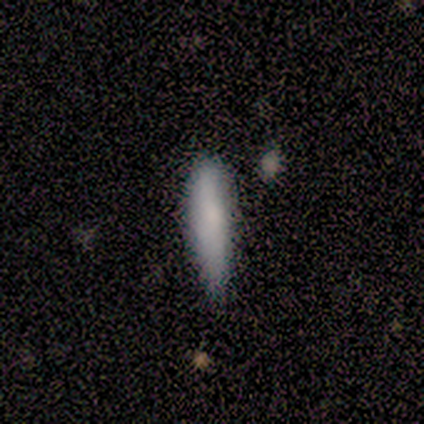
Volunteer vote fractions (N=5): Morphology: type=smooth (100%); roundness=cigar-shaped (60%); merging=none (60%).